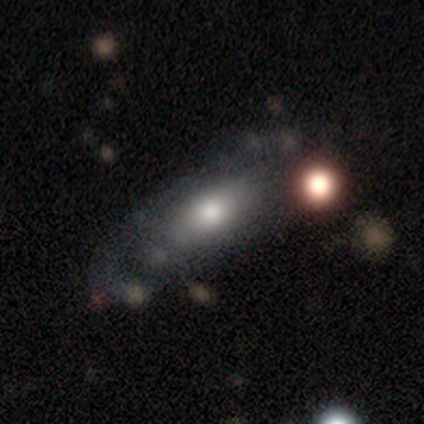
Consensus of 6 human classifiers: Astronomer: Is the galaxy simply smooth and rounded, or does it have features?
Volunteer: smooth — 67%.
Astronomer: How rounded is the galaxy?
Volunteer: cigar-shaped — 50%.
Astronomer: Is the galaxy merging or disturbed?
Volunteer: none — 83%.